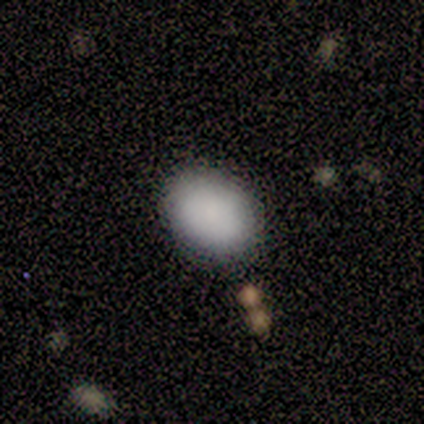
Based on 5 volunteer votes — Q: Smooth or featured?
A: smooth (80%); runner-up: featured or disk (20%)
Q: How rounded?
A: in between (75%); runner-up: round (25%)
Q: Merging?
A: none (100%)